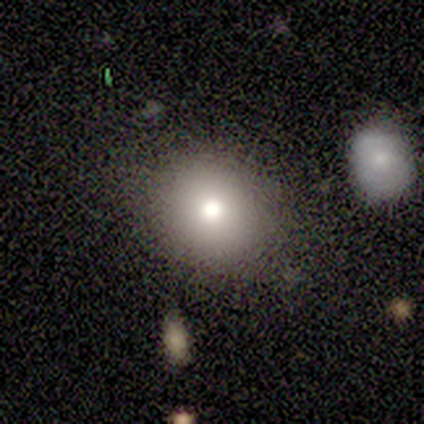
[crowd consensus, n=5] This is clearly a smooth galaxy (100%). How rounded: clearly round (80%). Merging: likely none (60%).